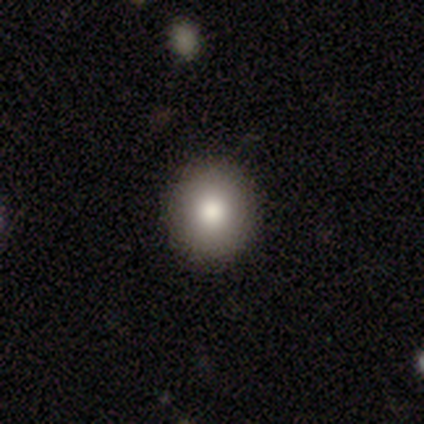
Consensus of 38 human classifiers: This is likely a smooth galaxy (79%). How rounded: clearly round (90%). Merging: clearly none (91%).